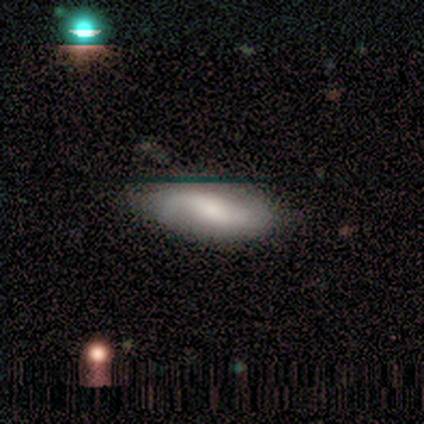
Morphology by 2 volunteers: Q: Smooth or featured?
A: smooth (50%); tied with: star or artifact (50%)
Q: How rounded?
A: in between (100%)
Q: Merging?
A: none (100%)